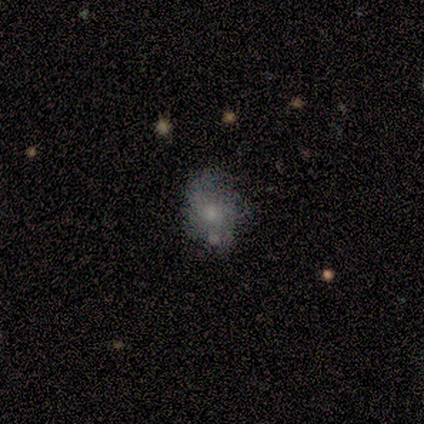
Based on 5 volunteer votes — Morphology: type=featured or disk (60%); edge-on=no (100%); bar=no (100%); spiral arms=no (100%); bulge=moderate (67%); merging=none (50%, tied with minor disturbance).